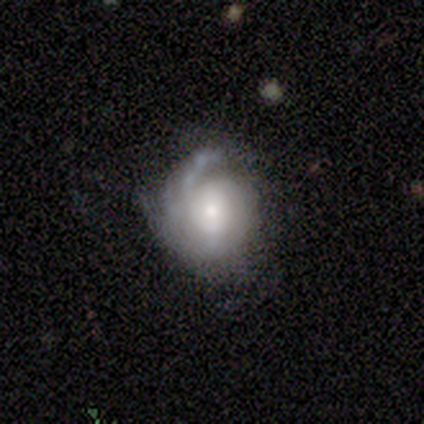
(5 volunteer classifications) A featured or disk galaxy (80%) with a weak bar (50%, tied with no), tight (50%, tied with medium) spiral arms (100%) and a moderate central bulge (75%).

Vote fractions:
- Smooth or featured? featured or disk: 80% / smooth: 20% / star or artifact: 0%
- Edge-on disk? no: 100% / yes: 0%
- Bar? weak: 50% (tied) / no: 50% (tied) / strong: 0%
- Spiral arms? yes: 100% / no: 0%
- Spiral winding? tight: 50% (tied) / medium: 50% (tied) / loose: 0%
- Spiral arm count? can't tell: 50% / 1: 25% / 2: 25% / 3: 0% / 4: 0% / more than 4: 0%
- Bulge size? moderate: 75% / small: 25% / dominant: 0% / large: 0% / none: 0%
- Merging? none: 60% / minor disturbance: 40% / major disturbance: 0% / merger: 0%